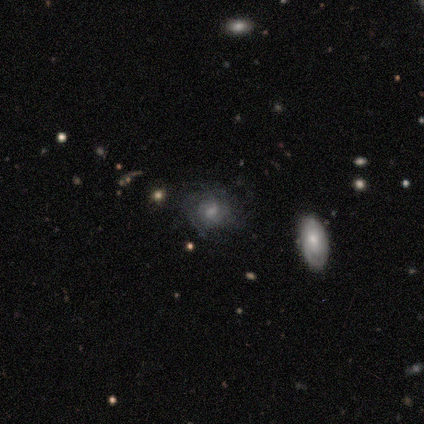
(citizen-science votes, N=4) Q: Smooth or featured?
A: featured or disk (50%); runner-up: smooth (25%)
Q: Edge-on disk?
A: no (100%)
Q: Bar?
A: no (100%)
Q: Spiral arms?
A: yes (100%)
Q: Spiral winding?
A: tight (100%)
Q: Spiral arm count?
A: 2 (50%); tied with: more than 4 (50%)
Q: Bulge size?
A: moderate (50%); tied with: small (50%)
Q: Merging?
A: none (100%)